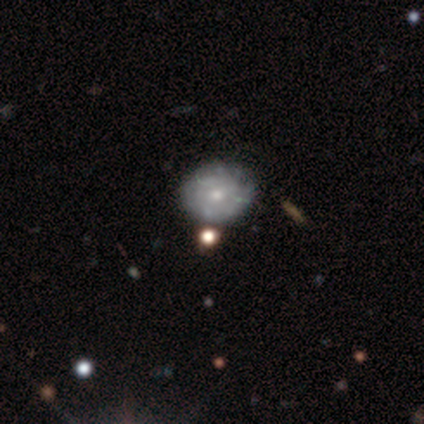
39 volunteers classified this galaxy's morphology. Smooth or featured? featured or disk (64%)
Edge-on disk? no (92%)
Bar? no (91%)
Spiral arms? no (52%)
Bulge size? moderate (57%)
Merging? none (49%)